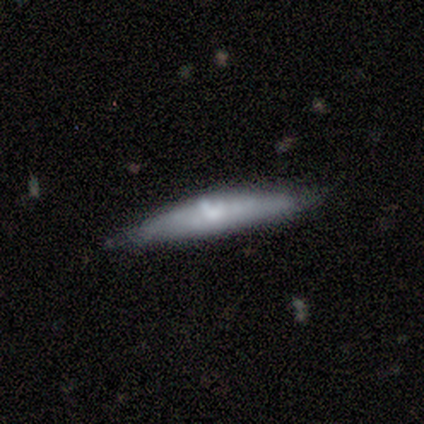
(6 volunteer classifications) Volunteers were most divided on "smooth or featured": smooth: 67%, featured or disk: 33%, star or artifact: 0%. More confident: how rounded — cigar-shaped (100%); merging — none (83%).